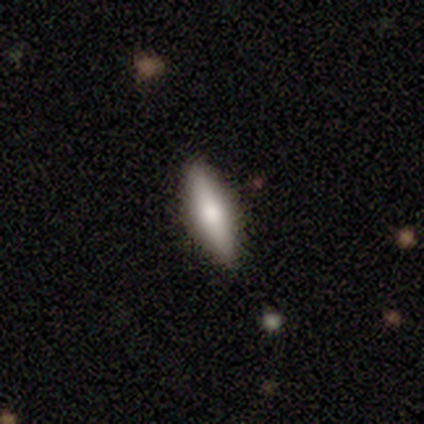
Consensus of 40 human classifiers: Volunteers were most divided on "how rounded": cigar-shaped: 57%, in between: 43%, round: 0%. More confident: merging — none (59%); smooth or featured — smooth (57%).